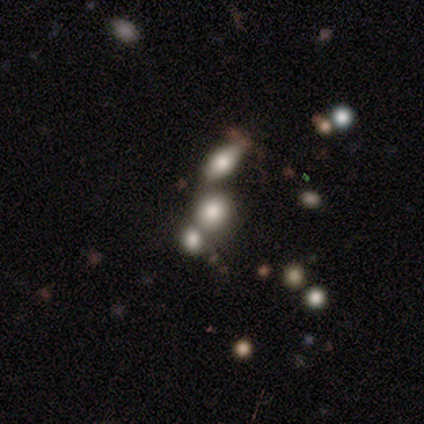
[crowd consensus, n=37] Smooth or featured? 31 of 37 (84%) said smooth. How rounded? 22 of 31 (71%) said round. Merging? 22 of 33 (67%) said merger.